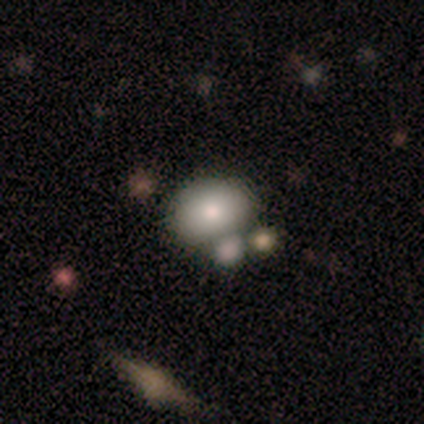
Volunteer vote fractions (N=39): smooth 82%, featured or disk 13%, star or artifact 5%. Down the decision tree: how rounded — in between (69%); merging — none (43%).